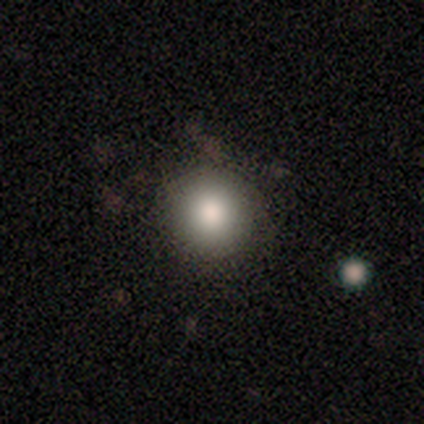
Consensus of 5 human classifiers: Volunteers were most divided on "smooth or featured": smooth: 60%, featured or disk: 40%, star or artifact: 0%. More confident: how rounded — round (100%); merging — none (80%).